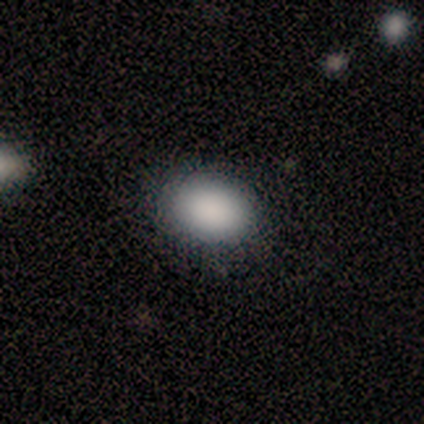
This appears to be a smooth galaxy with no disk features (71%) that is in between round and cigar-shaped (60%). Merging: none (67%).